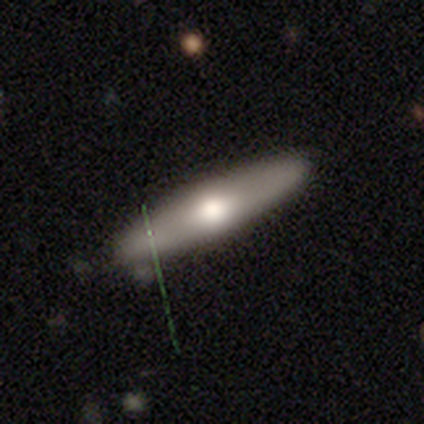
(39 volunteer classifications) Morphology: type=smooth (59%); roundness=cigar-shaped (78%); merging=none (86%).